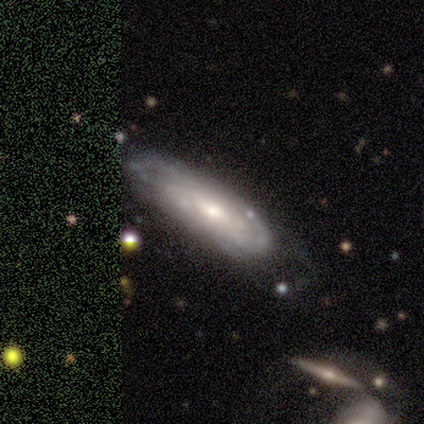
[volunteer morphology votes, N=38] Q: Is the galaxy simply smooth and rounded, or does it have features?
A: featured or disk — 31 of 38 (82%).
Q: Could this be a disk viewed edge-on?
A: no — 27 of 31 (87%).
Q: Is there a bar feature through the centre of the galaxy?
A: no — 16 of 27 (59%).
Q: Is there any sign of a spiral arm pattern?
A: yes — 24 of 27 (89%).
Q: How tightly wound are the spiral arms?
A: tight — 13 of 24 (54%).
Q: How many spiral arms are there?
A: can't tell — 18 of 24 (75%).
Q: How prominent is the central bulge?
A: moderate — 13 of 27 (48%).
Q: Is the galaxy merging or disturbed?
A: none — 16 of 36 (44%).